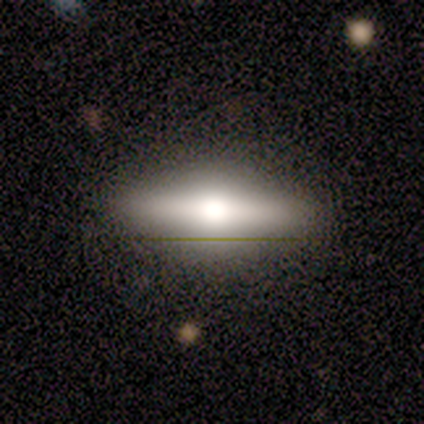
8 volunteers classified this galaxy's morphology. Smooth or featured: featured or disk — 75% (smooth — 12%)
Edge-on disk: yes — 100%
Edge-on bulge: rounded — 100%
Merging: none — 100%